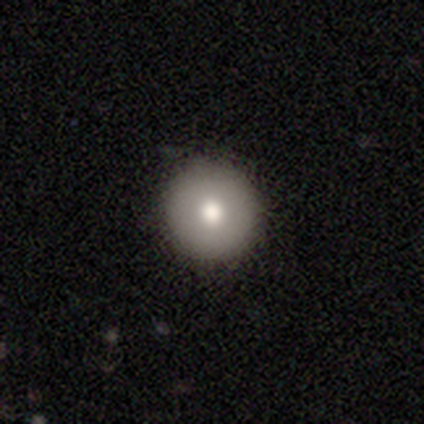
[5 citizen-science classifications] smooth 80%, star or artifact 20%, featured or disk 0%. Down the decision tree: how rounded — round (100%); merging — none (100%).